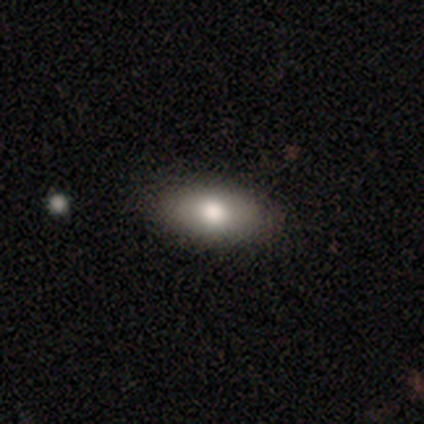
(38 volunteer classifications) This appears to be a smooth galaxy with no disk features (76%) that is in between round and cigar-shaped (79%). Merging: none (81%).